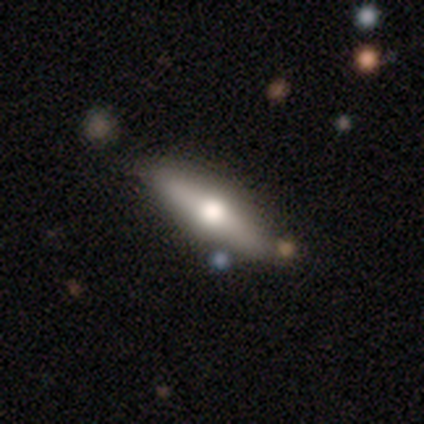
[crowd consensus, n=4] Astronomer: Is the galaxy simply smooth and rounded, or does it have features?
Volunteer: featured or disk — 75%.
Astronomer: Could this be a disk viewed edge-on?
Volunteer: yes — 67%.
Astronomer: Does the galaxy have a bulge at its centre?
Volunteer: rounded — 100%.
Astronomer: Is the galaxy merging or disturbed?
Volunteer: none — 75%.